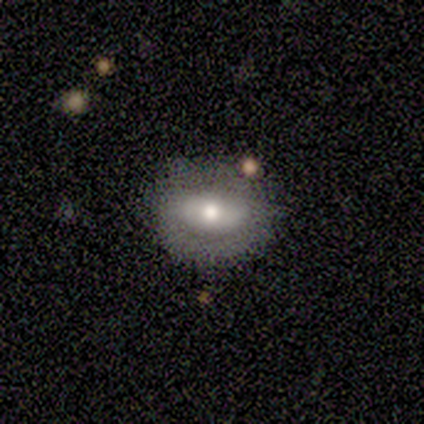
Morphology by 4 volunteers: smooth-or-featured: smooth: 50% (tied) | featured or disk: 50% (tied) | star or artifact: 0%
  how-rounded: in between: 100% | round: 0% | cigar-shaped: 0%
  merging: none: 100% | minor disturbance: 0% | major disturbance: 0% | merger: 0%